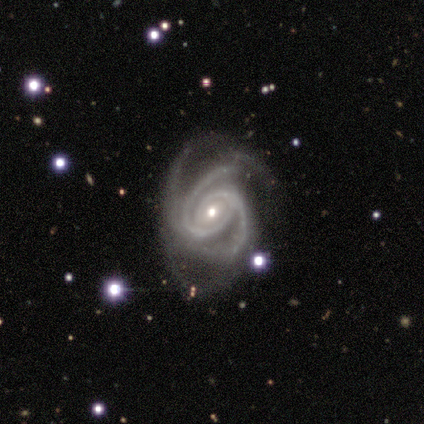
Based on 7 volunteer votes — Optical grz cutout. It shows a featured or disk galaxy (100%) with a weak bar (43%), 3 (71%) tight (86%) spiral arms (100%) and a small central bulge (71%). Merging: none (43%).